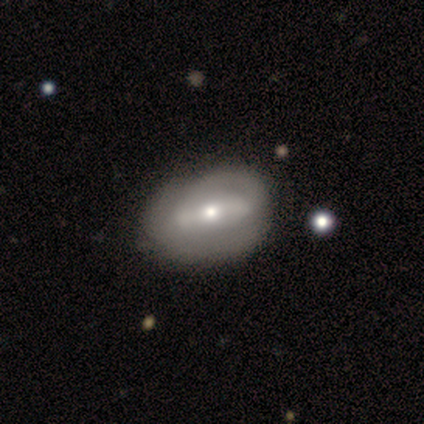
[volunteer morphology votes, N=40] A featured or disk galaxy (57%) with a strong bar (61%), no spiral arms (57%) and a moderate central bulge (52%).

Vote fractions:
- Smooth or featured? featured or disk: 57% / smooth: 42% / star or artifact: 0%
- Edge-on disk? no: 100% / yes: 0%
- Bar? strong: 61% / weak: 30% / no: 9%
- Spiral arms? no: 57% / yes: 43%
- Bulge size? moderate: 52% / small: 43% / large: 4% / dominant: 0% / none: 0%
- Merging? none: 40% / minor disturbance: 20% / major disturbance: 10% / merger: 2%